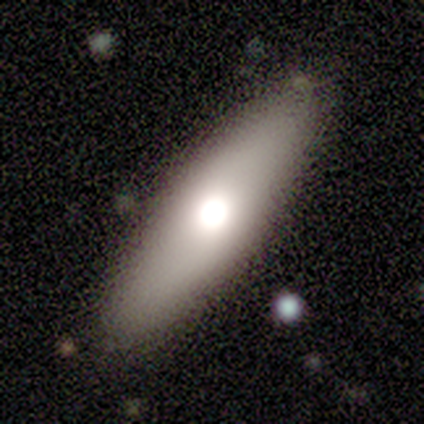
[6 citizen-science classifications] Smooth or featured?
  - smooth: 50% * (tied)
  - featured or disk: 50% * (tied)
  - star or artifact: 0%
How rounded?
  - cigar-shaped: 67% *
  - in between: 33%
  - round: 0%
Merging?
  - none: 100% *
  - minor disturbance: 0%
  - major disturbance: 0%
  - merger: 0%